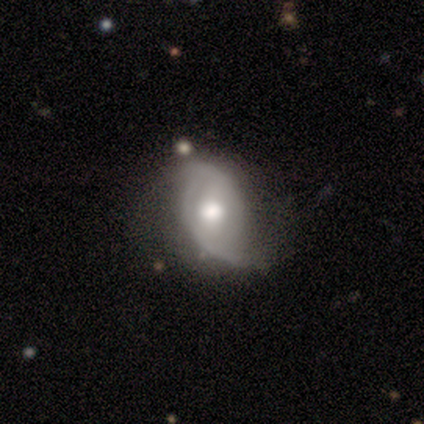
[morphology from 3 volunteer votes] Overall: smooth (33%, tied with featured or disk and star or artifact). How rounded: in between (100%). Merging: minor disturbance (50%, tied with major disturbance).